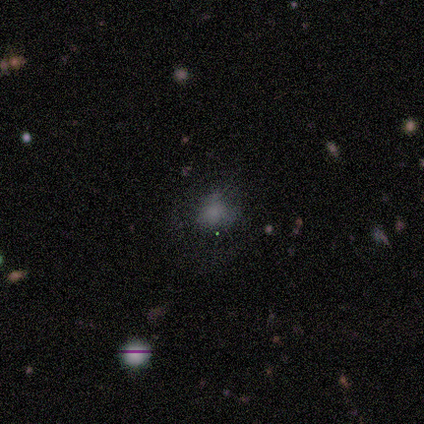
smooth-or-featured: smooth: 80% | star or artifact: 20% | featured or disk: 0%
  how-rounded: round: 75% | in between: 25% | cigar-shaped: 0%
  merging: none: 75% | minor disturbance: 25% | major disturbance: 0% | merger: 0%